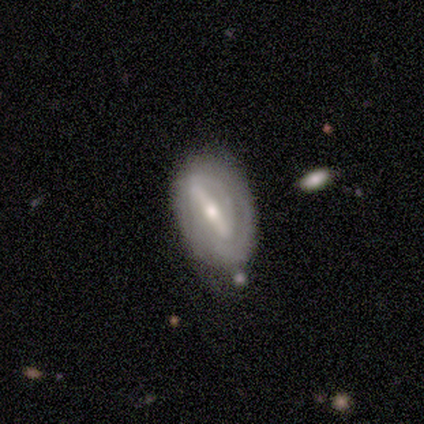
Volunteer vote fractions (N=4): Overall: featured or disk (75%). Edge-on disk: no (100%). Bar: strong (100%). Spiral arms: yes (100%). Spiral arm count: 2 (33%, tied with 3 and can't tell). Spiral winding: tight (67%; medium 33%). Bulge size: moderate (67%; small 33%). Merging: minor disturbance (100%).